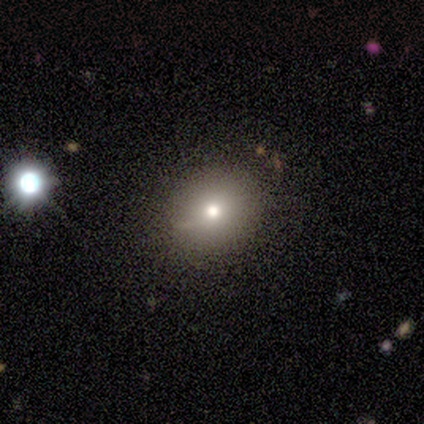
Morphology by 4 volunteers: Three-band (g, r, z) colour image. It shows a smooth galaxy with no disk features (75%) that is round (100%). Merging: none (67%).